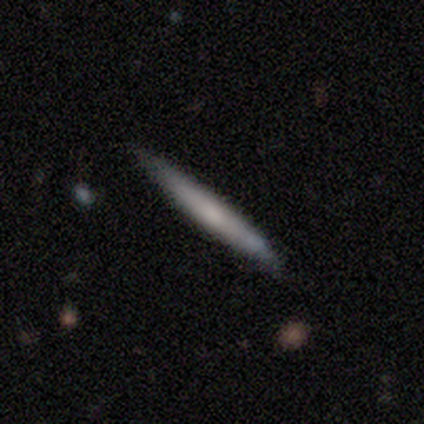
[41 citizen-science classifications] A smooth galaxy with no disk features (61%) that is cigar-shaped (100%). Merging: none (84%).